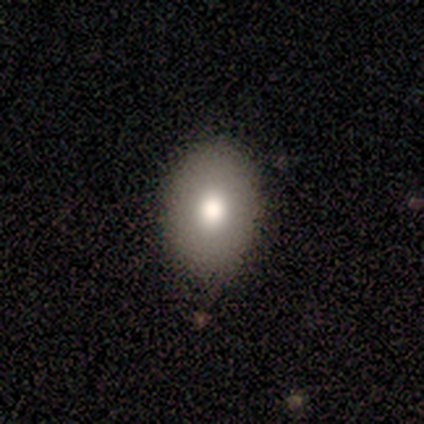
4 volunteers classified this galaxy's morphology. smooth 75%, featured or disk 25%, star or artifact 0%. Down the decision tree: how rounded — in between (100%); merging — none (100%).